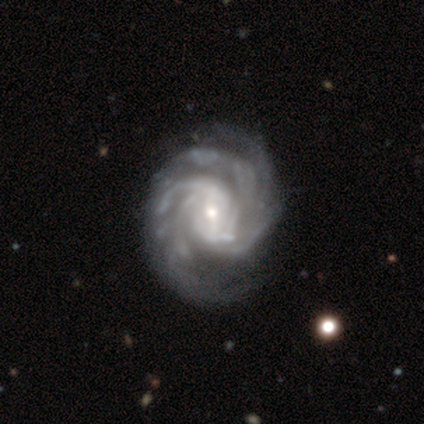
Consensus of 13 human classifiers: This appears to be a featured or disk galaxy (100%) with no bar (46%), tight (54%) spiral arms (100%) and a small central bulge (62%). Merging: none (62%).